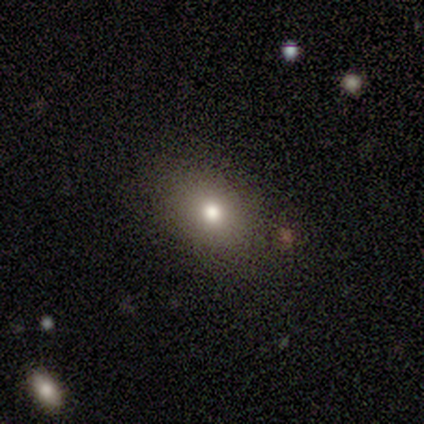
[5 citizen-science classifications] A smooth galaxy with no disk features (40%, tied with featured or disk) that is round (50%, tied with in between). Merging: none (75%).